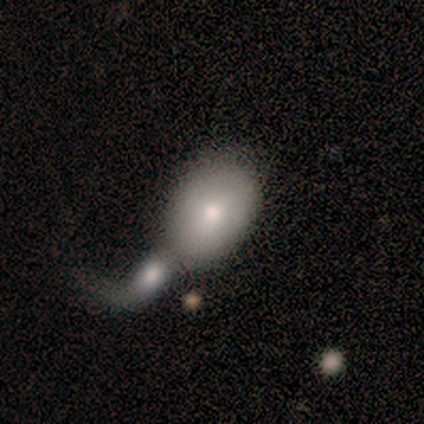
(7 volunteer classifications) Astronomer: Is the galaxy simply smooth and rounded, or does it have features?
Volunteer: smooth — 71%.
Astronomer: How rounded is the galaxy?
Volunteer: in between — 100%.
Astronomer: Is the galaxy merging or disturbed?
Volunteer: merger — 57%.